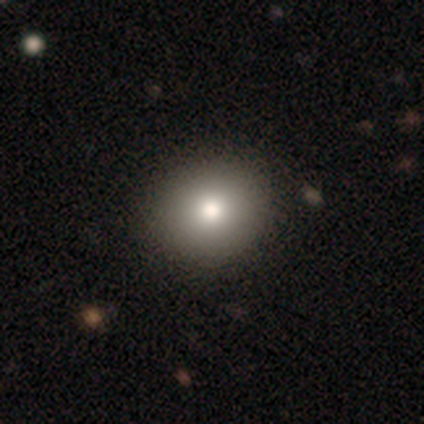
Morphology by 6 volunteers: Smooth or featured? smooth (67%)
How rounded? round (75%)
Merging? none (83%)